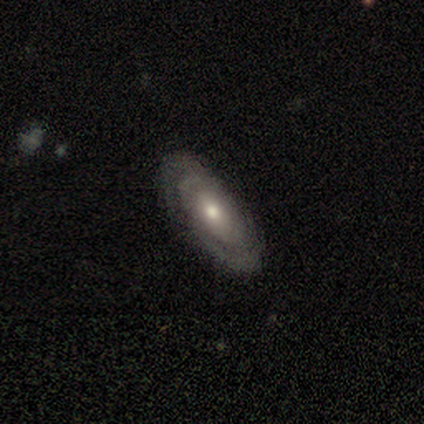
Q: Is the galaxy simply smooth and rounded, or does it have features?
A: featured or disk — 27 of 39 (69%).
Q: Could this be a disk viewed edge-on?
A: no — 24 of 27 (89%).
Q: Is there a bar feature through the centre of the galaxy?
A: no — 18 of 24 (75%).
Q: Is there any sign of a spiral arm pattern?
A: yes — 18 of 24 (75%).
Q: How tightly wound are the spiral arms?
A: tight — 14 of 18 (78%).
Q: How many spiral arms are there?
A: can't tell — 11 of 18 (61%).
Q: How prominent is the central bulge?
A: moderate — 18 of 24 (75%).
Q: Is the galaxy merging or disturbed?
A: none — 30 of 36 (83%).